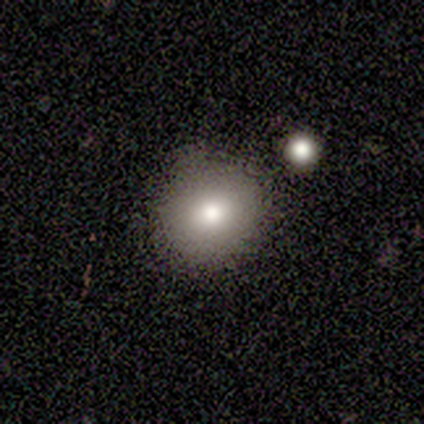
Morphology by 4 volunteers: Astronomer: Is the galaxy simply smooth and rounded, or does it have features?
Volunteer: smooth — 75%.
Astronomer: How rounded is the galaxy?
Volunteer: round — 67%.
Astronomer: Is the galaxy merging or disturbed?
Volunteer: none — 100%.